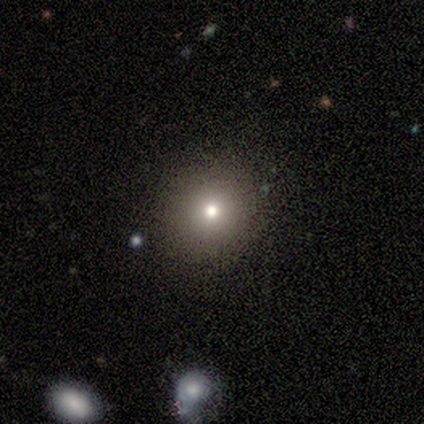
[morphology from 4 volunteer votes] Smooth or featured: smooth — 100%
How rounded: round — 75% (in between — 25%)
Merging: none — 100%